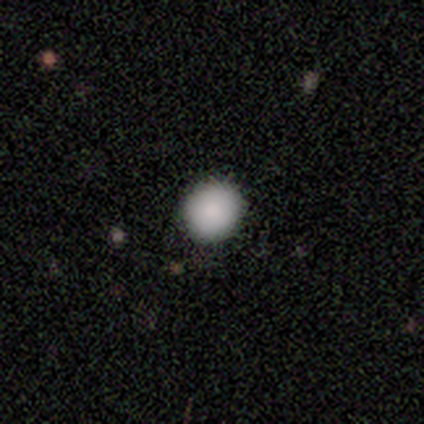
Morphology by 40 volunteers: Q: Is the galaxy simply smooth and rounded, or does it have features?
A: smooth — 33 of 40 (82%).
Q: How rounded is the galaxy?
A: round — 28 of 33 (85%).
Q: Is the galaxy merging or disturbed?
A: none — 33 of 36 (92%).